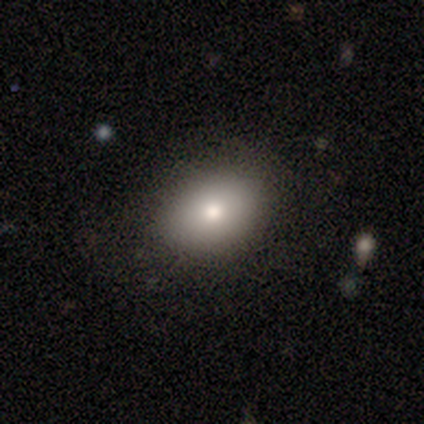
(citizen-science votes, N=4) Q: Smooth or featured?
A: smooth (75%); runner-up: star or artifact (25%)
Q: How rounded?
A: in between (100%)
Q: Merging?
A: none (67%); runner-up: minor disturbance (33%)